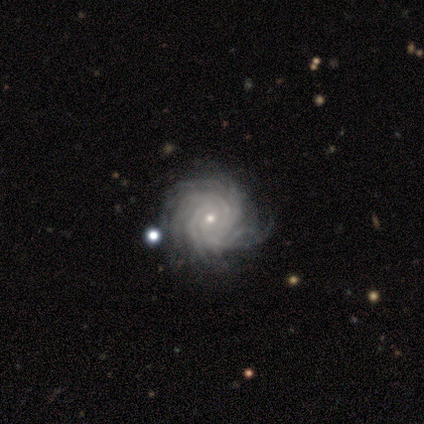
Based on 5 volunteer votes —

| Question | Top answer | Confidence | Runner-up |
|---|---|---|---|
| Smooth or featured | featured or disk | 100% | — |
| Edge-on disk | no | 100% | — |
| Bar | no | 100% | — |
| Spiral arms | yes | 100% | — |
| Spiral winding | tight | 100% | — |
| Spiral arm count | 4 | 40% | 3 (20%) |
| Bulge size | small | 80% | large (20%) |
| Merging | none | 80% | major disturbance (20%) |